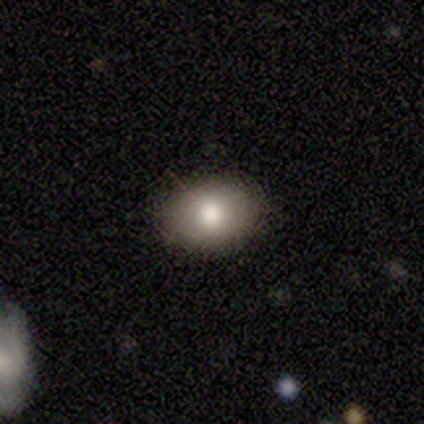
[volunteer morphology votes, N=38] smooth_or_featured: smooth (p=0.84) [alt: star or artifact p=0.11]
how_rounded: in between (p=0.62) [alt: round p=0.38]
merging: none (p=0.94) [alt: minor disturbance p=0.06]